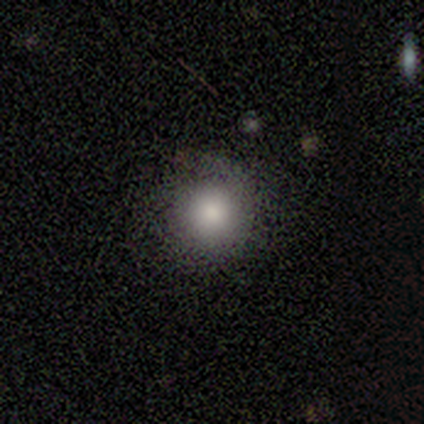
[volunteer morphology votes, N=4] Smooth or featured?
  - smooth: 100% *
  - featured or disk: 0%
  - star or artifact: 0%
How rounded?
  - round: 100% *
  - in between: 0%
  - cigar-shaped: 0%
Merging?
  - none: 100% *
  - minor disturbance: 0%
  - major disturbance: 0%
  - merger: 0%